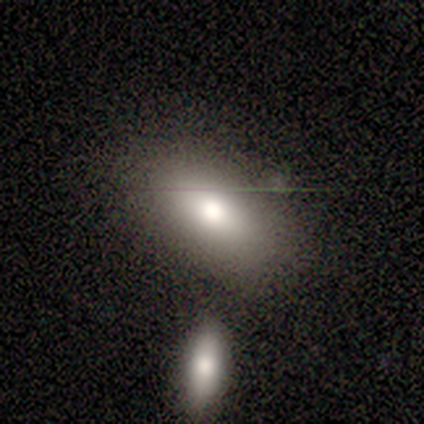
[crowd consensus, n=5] Volunteers were most divided on "merging" (2-way tie): none: 40%, merger: 40%, minor disturbance: 20%, major disturbance: 0%. More confident: smooth or featured — smooth (100%); how rounded — in between (100%).